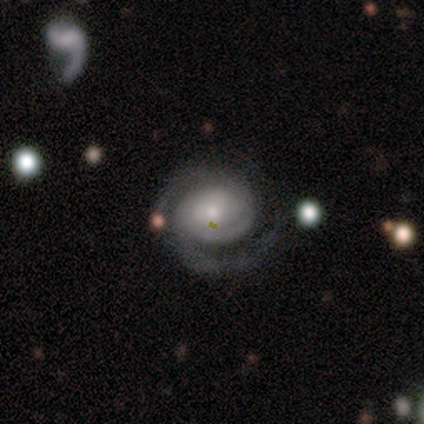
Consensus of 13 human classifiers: smooth-or-featured: featured or disk: 92% | smooth: 8% | star or artifact: 0%
  disk-edge-on: no: 100% | yes: 0%
    bar: no: 75% | weak: 25% | strong: 0%
    has-spiral-arms: yes: 100% | no: 0%
      spiral-winding: tight: 50% | medium: 42% | loose: 8%
      spiral-arm-count: 2: 83% | can't tell: 17% | 1: 0% | 3: 0% | 4: 0% | more than 4: 0%
    bulge-size: small: 58% | moderate: 42% | dominant: 0% | large: 0% | none: 0%
  merging: none: 69% | major disturbance: 23% | minor disturbance: 8% | merger: 0%